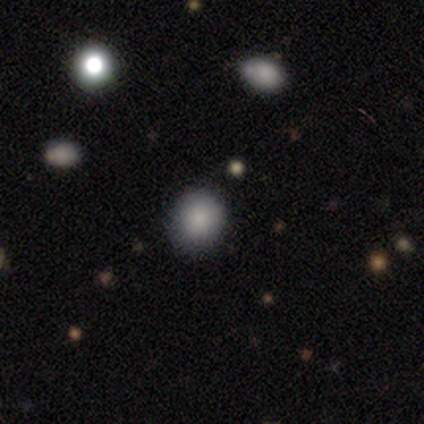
smooth_or_featured: smooth (p=1.00)
how_rounded: round (p=0.90) [alt: in between p=0.10]
merging: none (p=0.90) [alt: minor disturbance p=0.10]